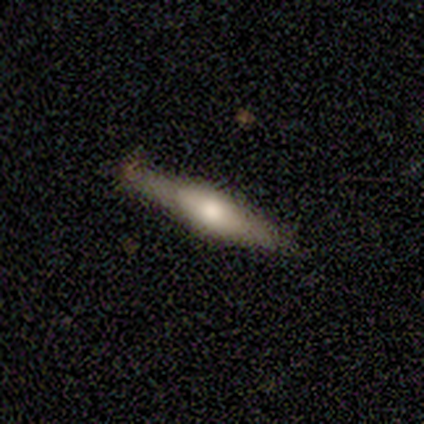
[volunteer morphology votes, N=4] Q: Smooth or featured?
A: smooth (75%); runner-up: featured or disk (25%)
Q: How rounded?
A: cigar-shaped (100%)
Q: Merging?
A: none (75%); runner-up: minor disturbance (25%)